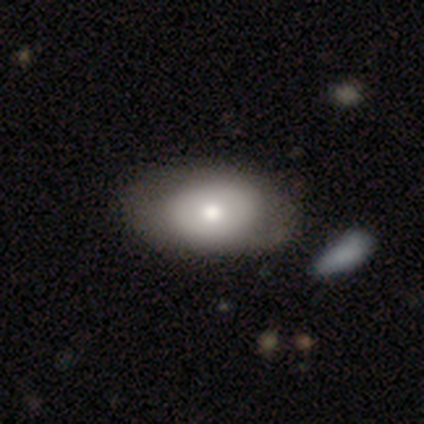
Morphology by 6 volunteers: Overall: smooth (83%). How rounded: in between (100%). Merging: none (33%, tied with minor disturbance and merger).